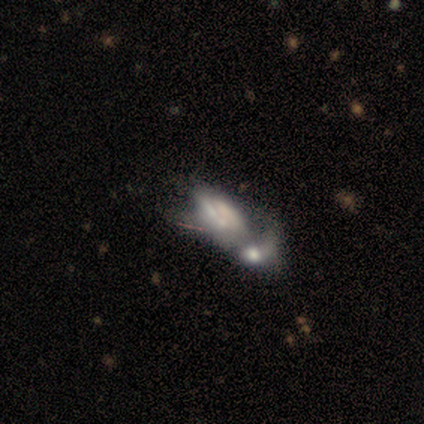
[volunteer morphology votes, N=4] Q: Smooth or featured?
A: smooth (50%); tied with: featured or disk (50%)
Q: How rounded?
A: in between (100%)
Q: Merging?
A: merger (75%); runner-up: major disturbance (25%)